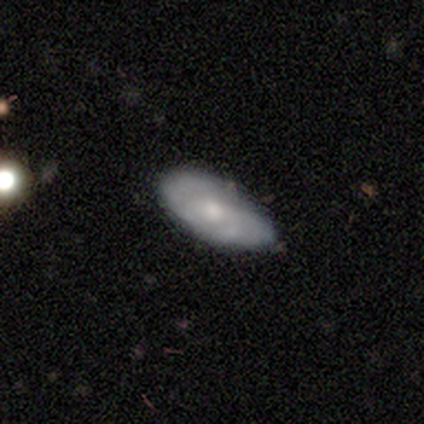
smooth 51%, featured or disk 49%, star or artifact 0%. Down the decision tree: how rounded — in between (100%); merging — none (65%).